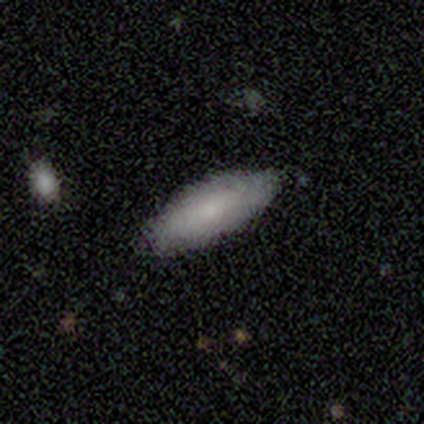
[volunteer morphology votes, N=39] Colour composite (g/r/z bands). It shows a smooth galaxy with no disk features (72%) that is in between round and cigar-shaped (79%). Merging: none (82%).